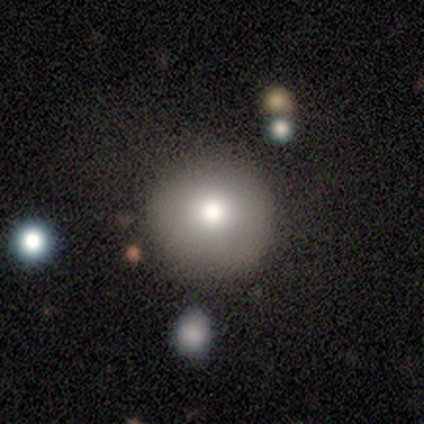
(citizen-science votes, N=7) Morphology: type=smooth (57%); roundness=round (100%); merging=none (80%).